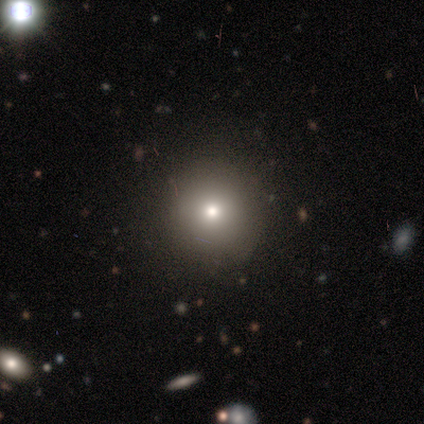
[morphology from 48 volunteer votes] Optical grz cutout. It shows a smooth galaxy with no disk features (60%) that is round (100%). Merging: none (87%).